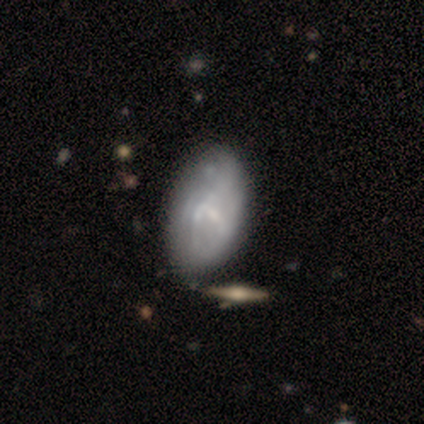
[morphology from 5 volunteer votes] Q: Smooth or featured?
A: featured or disk (60%); runner-up: smooth (20%)
Q: Edge-on disk?
A: no (100%)
Q: Bar?
A: no (67%); runner-up: weak (33%)
Q: Spiral arms?
A: yes (67%); runner-up: no (33%)
Q: Spiral winding?
A: tight (50%); tied with: loose (50%)
Q: Spiral arm count?
A: 2 (50%); tied with: can't tell (50%)
Q: Bulge size?
A: small (67%); runner-up: moderate (33%)
Q: Merging?
A: none (75%); runner-up: minor disturbance (25%)